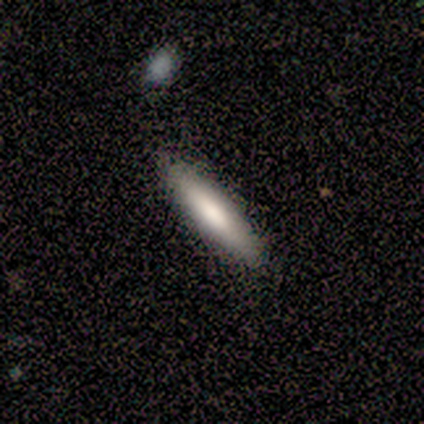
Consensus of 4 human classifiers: Volunteers were most divided on "how rounded": cigar-shaped: 75%, in between: 25%, round: 0%. More confident: smooth or featured — smooth (100%); merging — none (100%).